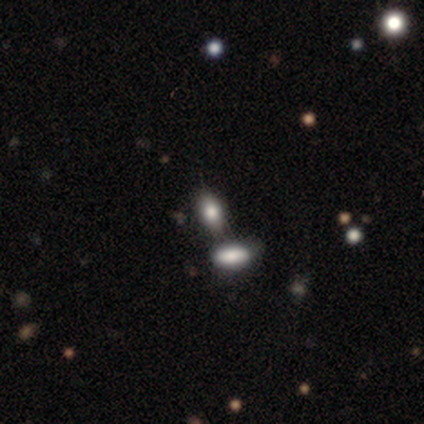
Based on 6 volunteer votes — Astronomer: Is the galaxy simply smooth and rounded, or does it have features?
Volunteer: smooth — 100%.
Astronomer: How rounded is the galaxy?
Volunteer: in between — 100%.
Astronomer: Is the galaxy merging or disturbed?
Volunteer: none — 67%.